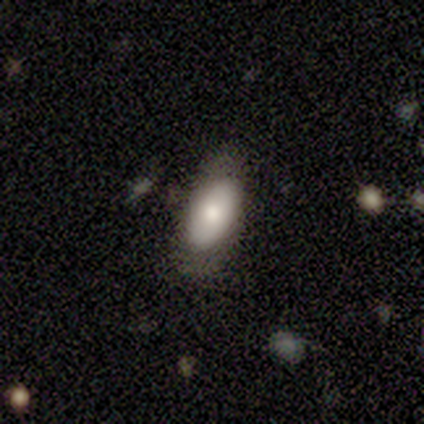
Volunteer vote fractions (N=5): Volunteers were most divided on "merging" (2-way tie): none: 50%, minor disturbance: 50%, major disturbance: 0%, merger: 0%. More confident: how rounded — in between (100%); smooth or featured — smooth (80%).